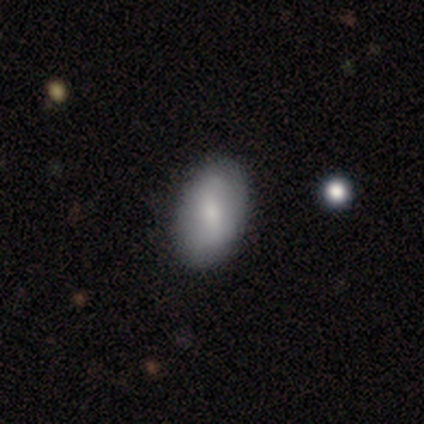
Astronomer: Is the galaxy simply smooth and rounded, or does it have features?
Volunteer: smooth — 57% (runner-up: featured or disk, 38%).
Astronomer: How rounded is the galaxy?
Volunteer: in between — 95%.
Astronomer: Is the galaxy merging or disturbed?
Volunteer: none — 83%.